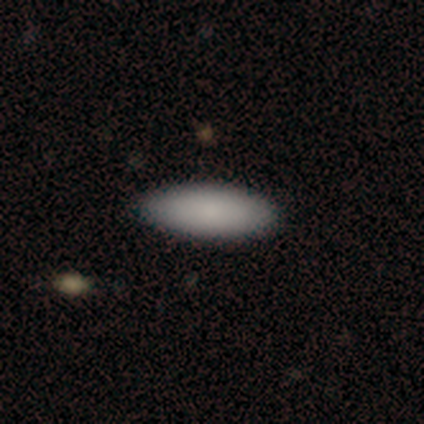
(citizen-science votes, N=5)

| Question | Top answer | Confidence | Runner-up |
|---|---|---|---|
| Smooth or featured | smooth | 100% | — |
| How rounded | in between | 80% | cigar-shaped (20%) |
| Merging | none | 100% | — |